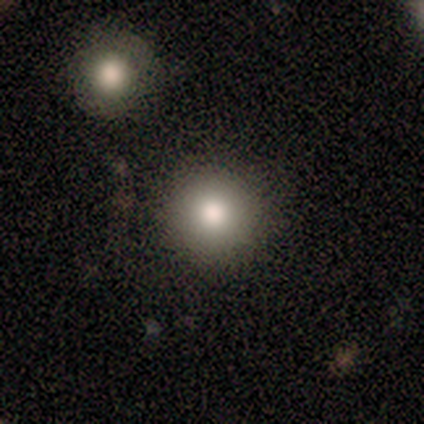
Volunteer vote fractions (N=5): Smooth or featured? smooth (100%)
How rounded? round (100%)
Merging? none (100%)